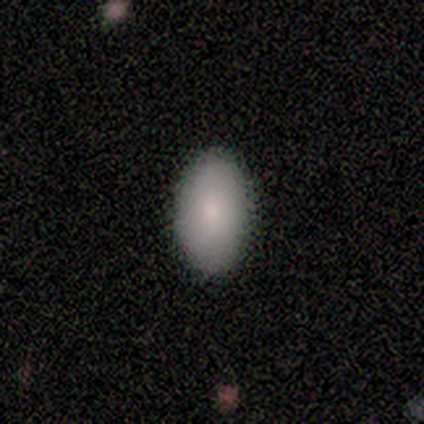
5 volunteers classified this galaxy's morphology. A smooth galaxy with no disk features (100%) that is in between round and cigar-shaped (100%).

Vote fractions:
- Smooth or featured? smooth: 100% / featured or disk: 0% / star or artifact: 0%
- How rounded? in between: 100% / round: 0% / cigar-shaped: 0%
- Merging? none: 80% / minor disturbance: 20% / major disturbance: 0% / merger: 0%